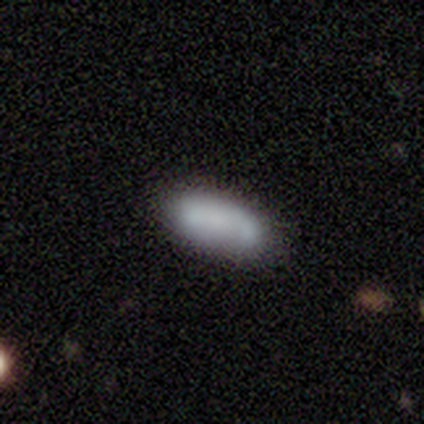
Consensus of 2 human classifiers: Volunteers were most divided on "smooth or featured" (2-way tie): smooth: 50%, star or artifact: 50%, featured or disk: 0%. More confident: how rounded — in between (100%); merging — none (100%).